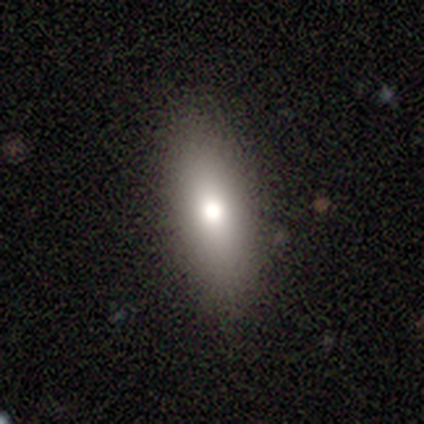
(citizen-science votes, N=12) A smooth galaxy with no disk features (67%) that is in between round and cigar-shaped (62%).

Vote fractions:
- Smooth or featured? smooth: 67% / featured or disk: 25% / star or artifact: 8%
- How rounded? in between: 62% / cigar-shaped: 38% / round: 0%
- Merging? none: 100% / minor disturbance: 0% / major disturbance: 0% / merger: 0%